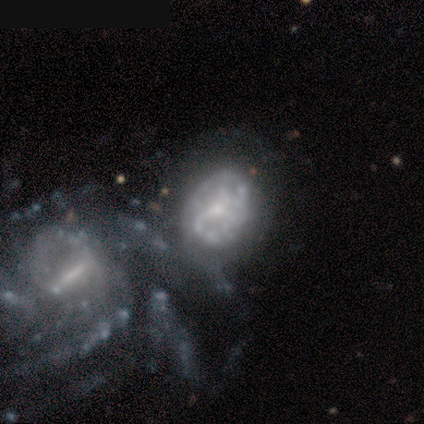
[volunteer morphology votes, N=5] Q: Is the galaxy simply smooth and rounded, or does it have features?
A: featured or disk — 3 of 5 (60%).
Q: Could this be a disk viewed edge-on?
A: no — 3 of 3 (100%).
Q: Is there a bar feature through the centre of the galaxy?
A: weak — 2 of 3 (67%).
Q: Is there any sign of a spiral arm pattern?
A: no — 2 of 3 (67%).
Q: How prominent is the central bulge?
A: moderate — 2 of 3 (67%).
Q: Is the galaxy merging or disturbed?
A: merger — 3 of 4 (75%).